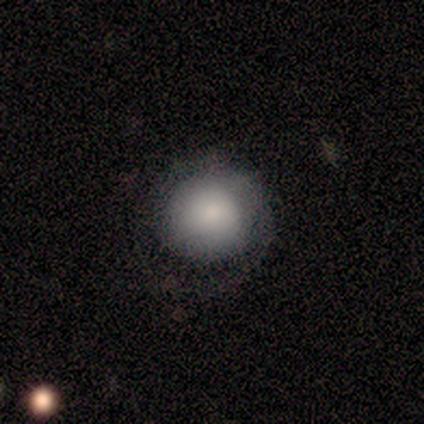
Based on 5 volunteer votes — Smooth or featured: smooth — 60% (featured or disk — 40%)
How rounded: round — 100%
Merging: minor disturbance — 80% (none — 20%)